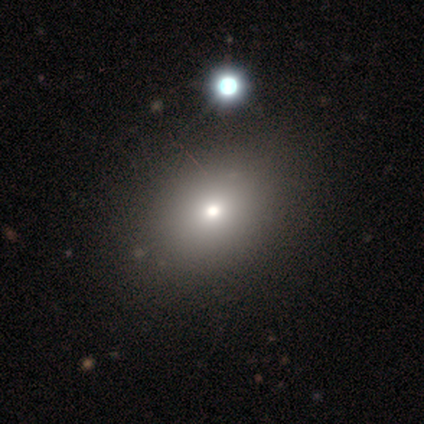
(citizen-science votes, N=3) Volunteers were most divided on "smooth or featured" (3-way tie): smooth: 33%, featured or disk: 33%, star or artifact: 33%. More confident: how rounded — round (100%); merging — none (100%).